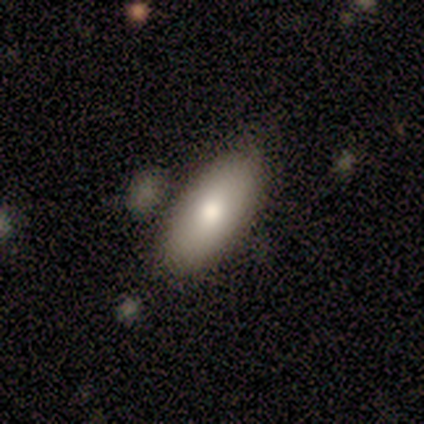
Overall: smooth (60%; featured or disk 40%). How rounded: in between (100%). Merging: none (80%).